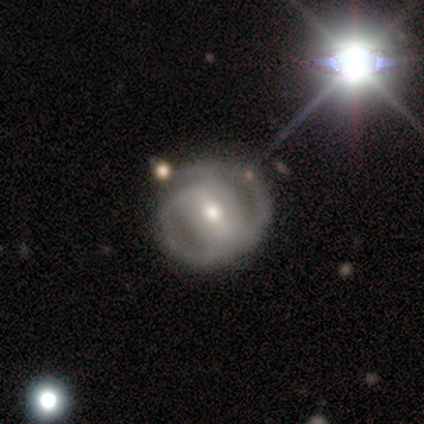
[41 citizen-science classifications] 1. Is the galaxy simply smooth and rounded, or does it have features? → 85% featured or disk, 12% smooth, 2% star or artifact.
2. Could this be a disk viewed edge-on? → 94% no, 6% yes.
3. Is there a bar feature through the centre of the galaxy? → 45% strong, 39% weak, 15% no.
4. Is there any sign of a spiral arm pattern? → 82% yes, 18% no.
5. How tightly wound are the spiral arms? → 44% tight, 37% medium, 19% loose.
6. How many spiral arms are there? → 59% 2, 26% can't tell, 15% 1, 0% 3, 0% 4, 0% more than 4.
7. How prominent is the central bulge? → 64% moderate, 30% small, 3% large, 3% none, 0% dominant.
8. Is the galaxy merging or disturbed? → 80% none, 12% minor disturbance, 5% major disturbance, 2% merger.